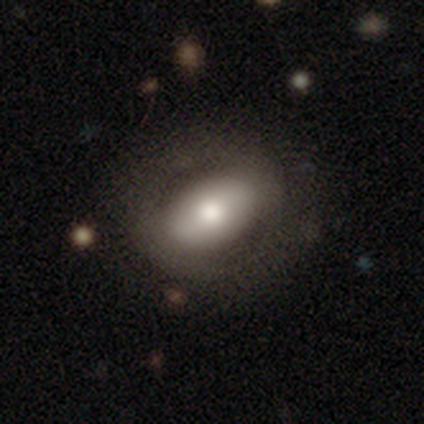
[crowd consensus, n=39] smooth_or_featured: featured or disk (p=0.56) [alt: smooth p=0.41]
disk_edge_on: no (p=0.95) [alt: yes p=0.05]
bar: strong (p=0.48) [alt: no p=0.29]
has_spiral_arms: no (p=0.67) [alt: yes p=0.33]
bulge_size: moderate (p=0.57) [alt: large p=0.33]
merging: none (p=0.47) [alt: minor disturbance p=0.11]